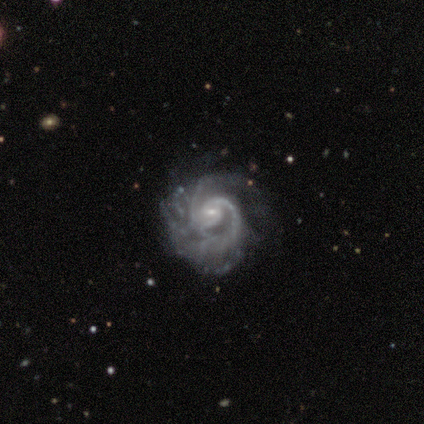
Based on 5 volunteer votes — Smooth or featured?
  - featured or disk: 100% *
  - smooth: 0%
  - star or artifact: 0%
Edge-on disk?
  - no: 100% *
  - yes: 0%
Bar?
  - weak: 60% *
  - no: 40%
  - strong: 0%
Spiral arms?
  - yes: 80% *
  - no: 20%
Spiral winding?
  - medium: 75% *
  - tight: 25%
  - loose: 0%
Spiral arm count?
  - 2: 50% *
  - 3: 25%
  - can't tell: 25%
  - 1: 0%
  - 4: 0%
  - more than 4: 0%
Bulge size?
  - small: 80% *
  - moderate: 20%
  - dominant: 0%
  - large: 0%
  - none: 0%
Merging?
  - none: 40% * (tied)
  - minor disturbance: 40% * (tied)
  - major disturbance: 20%
  - merger: 0%